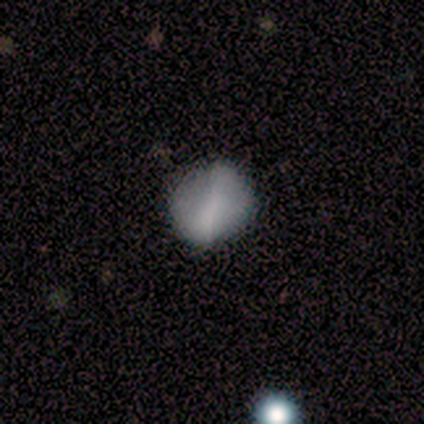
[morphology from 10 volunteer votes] Volunteers were most divided on "how rounded": round: 60%, in between: 40%, cigar-shaped: 0%. More confident: smooth or featured — smooth (50%); merging — none (50%).